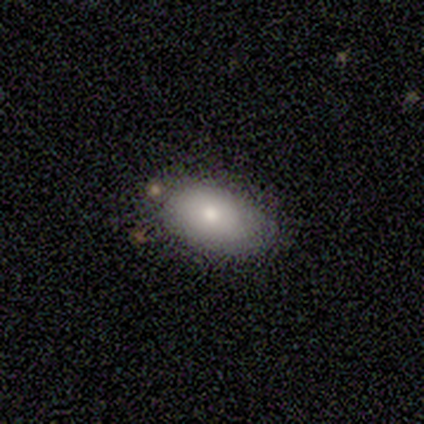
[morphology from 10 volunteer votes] Overall: smooth (100%). How rounded: in between (100%). Merging: none (70%).